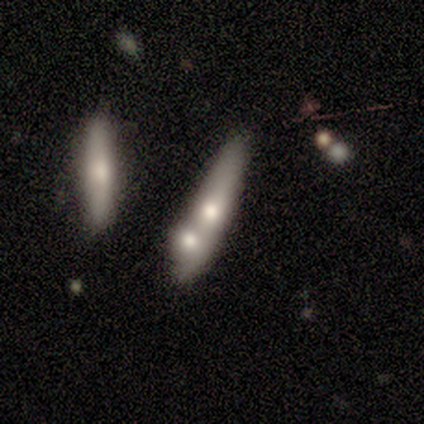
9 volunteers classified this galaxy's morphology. Smooth or featured? 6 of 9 (67%) said smooth. How rounded? 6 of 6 (100%) said cigar-shaped. Merging? 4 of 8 (50%) said none.